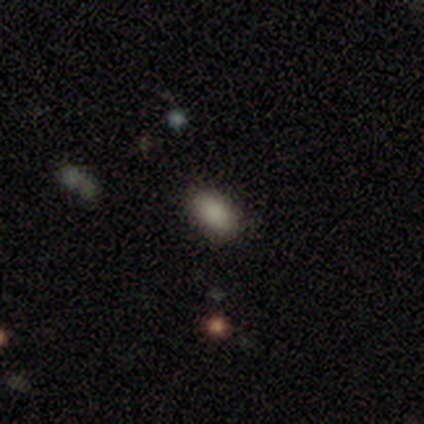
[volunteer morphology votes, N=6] A smooth galaxy with no disk features (83%) that is in between round and cigar-shaped (100%).

Vote fractions:
- Smooth or featured? smooth: 83% / featured or disk: 17% / star or artifact: 0%
- How rounded? in between: 100% / round: 0% / cigar-shaped: 0%
- Merging? none: 67% / minor disturbance: 17% / major disturbance: 17% / merger: 0%